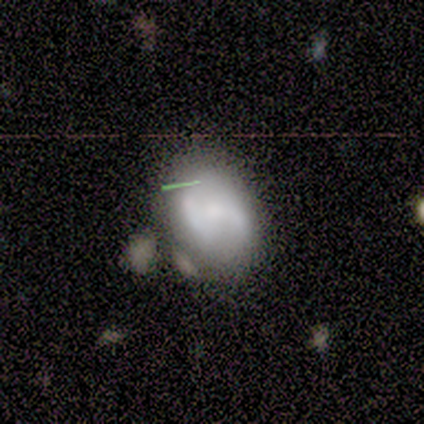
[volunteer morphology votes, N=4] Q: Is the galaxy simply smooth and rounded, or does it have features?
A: smooth — 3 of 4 (75%).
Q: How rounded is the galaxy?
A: in between — 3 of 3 (100%).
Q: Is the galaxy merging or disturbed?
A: none — 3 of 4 (75%).